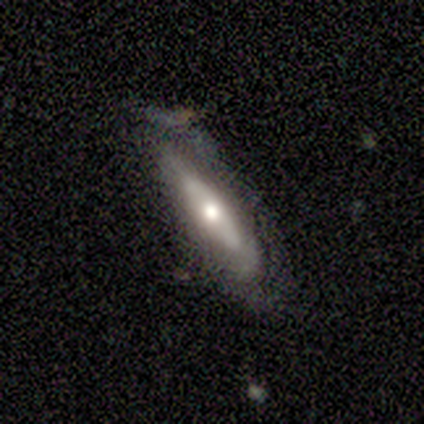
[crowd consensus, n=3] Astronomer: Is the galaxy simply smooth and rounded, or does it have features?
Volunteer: featured or disk — 67%.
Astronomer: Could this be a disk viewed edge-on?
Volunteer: no — 100%.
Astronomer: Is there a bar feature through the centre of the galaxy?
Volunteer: no — 100%.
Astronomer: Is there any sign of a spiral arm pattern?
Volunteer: yes — 50%, tied with no at 50%.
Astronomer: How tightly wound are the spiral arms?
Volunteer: medium — 100%.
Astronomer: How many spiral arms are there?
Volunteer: can't tell — 100%.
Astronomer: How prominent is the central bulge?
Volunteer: moderate — 50%, tied with small at 50%.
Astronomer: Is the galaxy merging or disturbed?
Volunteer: none — 100%.